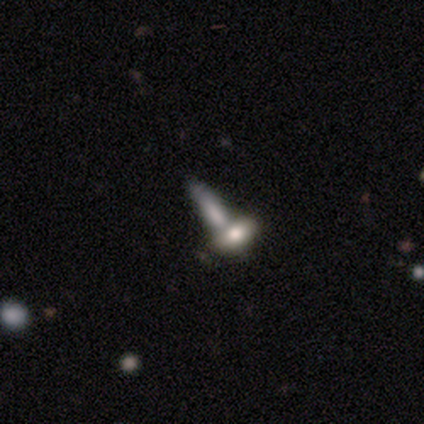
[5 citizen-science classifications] Overall: smooth (40%, tied with featured or disk). How rounded: in between (50%, tied with cigar-shaped). Merging: merger (75%).